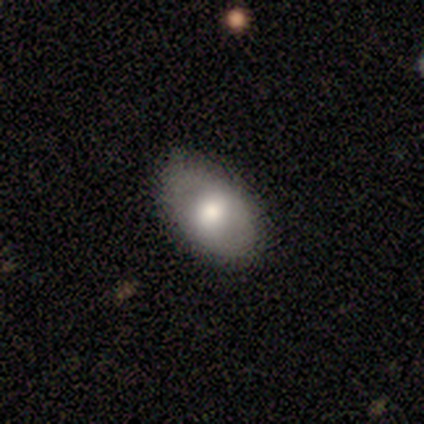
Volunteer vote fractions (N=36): A smooth galaxy with no disk features (72%) that is in between round and cigar-shaped (96%). Merging: none (78%).